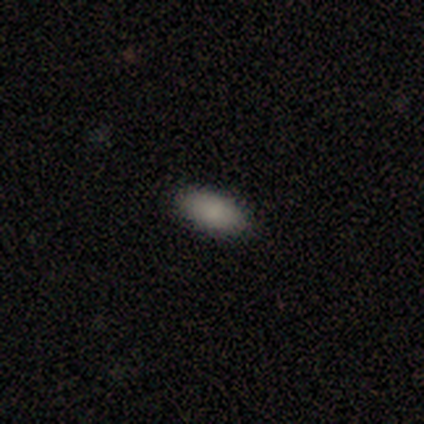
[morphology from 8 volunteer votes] Smooth or featured? 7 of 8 (88%) said smooth. How rounded? 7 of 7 (100%) said in between. Merging? 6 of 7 (86%) said none.